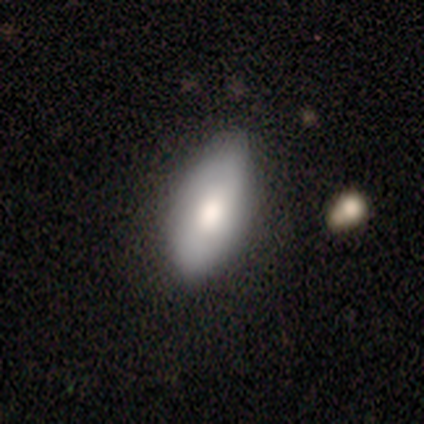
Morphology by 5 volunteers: smooth_or_featured: smooth (p=1.00)
how_rounded: in between (p=1.00)
merging: none (p=0.80) [alt: minor disturbance p=0.20]